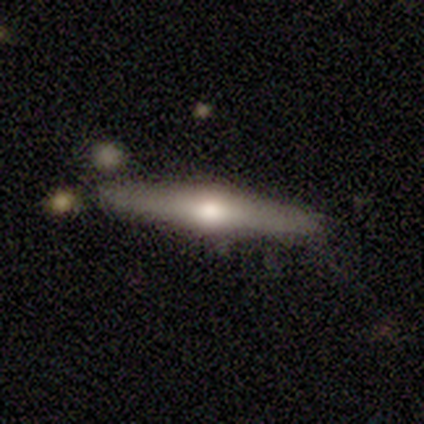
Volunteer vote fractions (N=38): A featured or disk galaxy (68%) viewed edge-on (100%) with a rounded central bulge (96%).

Vote fractions:
- Smooth or featured? featured or disk: 68% / smooth: 29% / star or artifact: 3%
- Edge-on disk? yes: 100% / no: 0%
- Edge-on bulge? rounded: 96% / boxy: 4% / none: 0%
- Merging? none: 84% / minor disturbance: 14% / major disturbance: 3% / merger: 0%